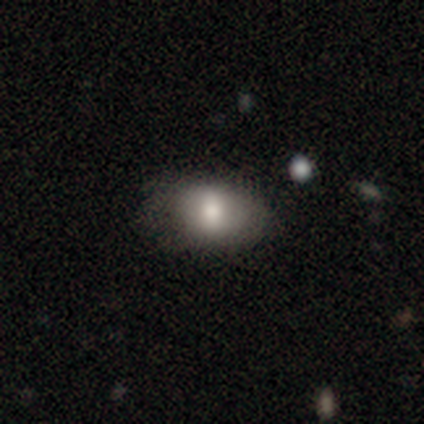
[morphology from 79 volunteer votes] Volunteers were most divided on "merging": none: 30%, minor disturbance: 14%, merger: 9%, major disturbance: 1%. More confident: how rounded — in between (84%); smooth or featured — smooth (81%).